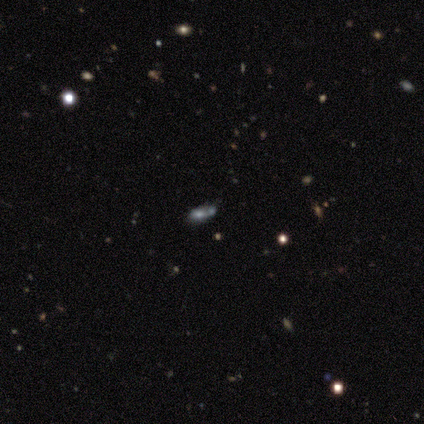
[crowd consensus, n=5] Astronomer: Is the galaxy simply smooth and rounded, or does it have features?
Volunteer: featured or disk — 40%, tied with star or artifact at 40%.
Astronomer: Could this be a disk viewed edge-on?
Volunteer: yes — 50%, tied with no at 50%.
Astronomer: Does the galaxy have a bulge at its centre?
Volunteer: rounded — 100%.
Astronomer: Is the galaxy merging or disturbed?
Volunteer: merger — 100%.